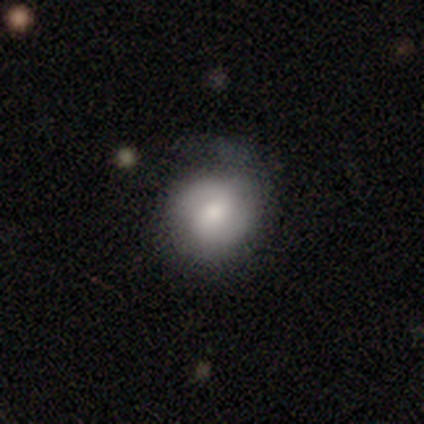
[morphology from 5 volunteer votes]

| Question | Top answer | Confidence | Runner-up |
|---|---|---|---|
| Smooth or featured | smooth | 80% | featured or disk (20%) |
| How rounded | round | 100% | — |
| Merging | none | 60% | minor disturbance (40%) |